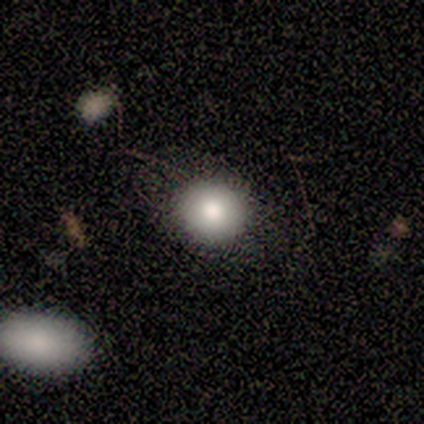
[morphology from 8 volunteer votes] Overall: smooth (100%). How rounded: round (88%). Merging: none (75%).